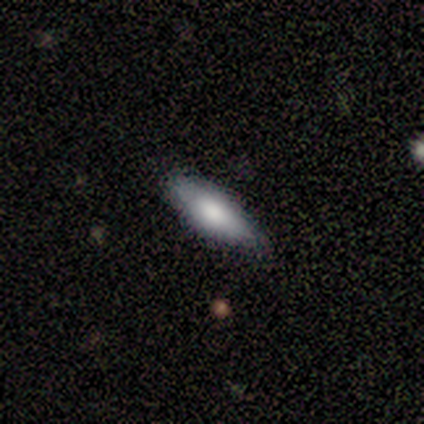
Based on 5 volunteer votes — Smooth or featured: smooth — 80% (featured or disk — 20%)
How rounded: in between — 100%
Merging: none — 100%